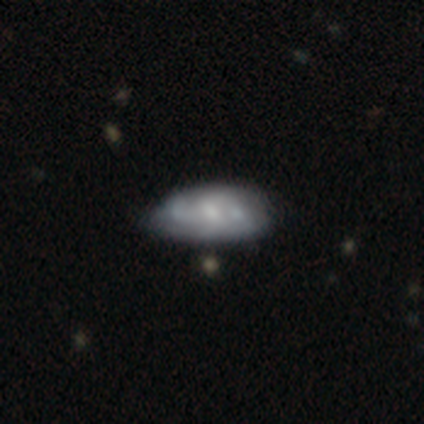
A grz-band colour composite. It shows a featured or disk galaxy (59%) with no bar (61%), medium (48%) spiral arms (56%) and a moderate central bulge (51%). Merging: none (26%).